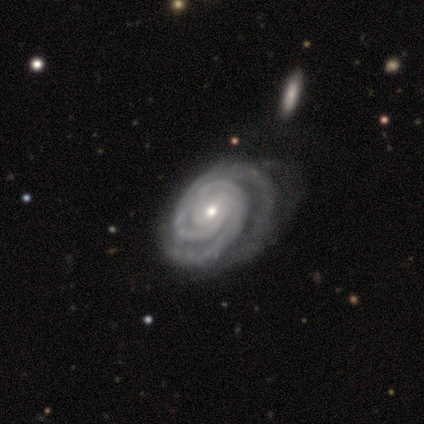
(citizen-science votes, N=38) This appears to be a featured or disk galaxy (97%) with no bar (57%), 2 (49%) tight (95%) spiral arms (100%) and a moderate central bulge (49%, tied with small). Merging: none (30%).